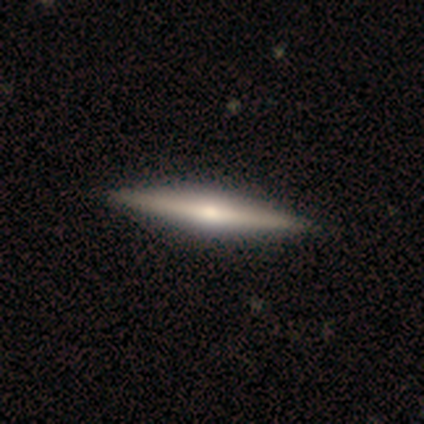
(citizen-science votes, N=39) Smooth or featured: featured or disk — 90% (smooth — 10%)
Edge-on disk: yes — 97% (no — 3%)
Edge-on bulge: rounded — 88% (boxy — 6%)
Merging: none — 64% (major disturbance — 3%)